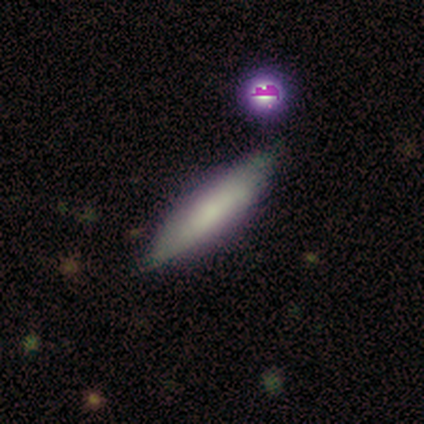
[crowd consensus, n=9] A smooth galaxy with no disk features (78%) that is cigar-shaped (57%). Merging: none (100%).